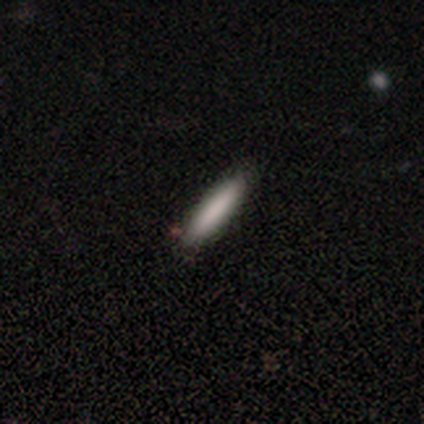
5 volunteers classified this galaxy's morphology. Smooth or featured? smooth (60%)
How rounded? cigar-shaped (100%)
Merging? none (75%)